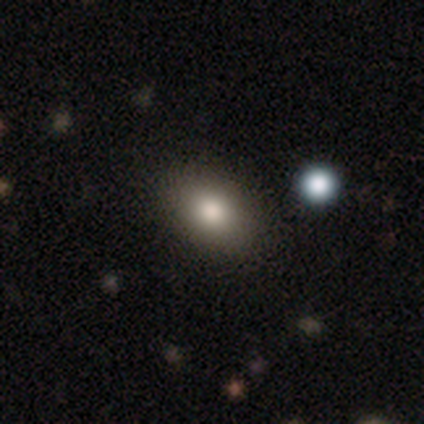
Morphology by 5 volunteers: This is clearly a smooth galaxy (100%). How rounded: clearly in between (100%). Merging: clearly none (100%).